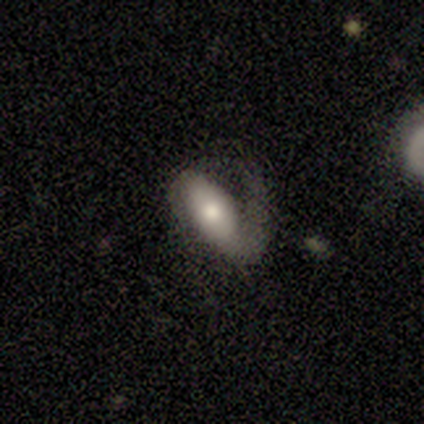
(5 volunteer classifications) Overall: smooth (60%; featured or disk 40%). How rounded: in between (100%). Merging: major disturbance (60%; none 20%).